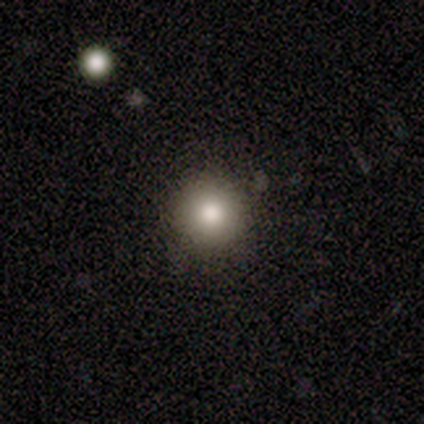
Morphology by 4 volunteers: Volunteers were most divided on "smooth or featured": smooth: 75%, star or artifact: 25%, featured or disk: 0%. More confident: how rounded — round (100%); merging — none (100%).